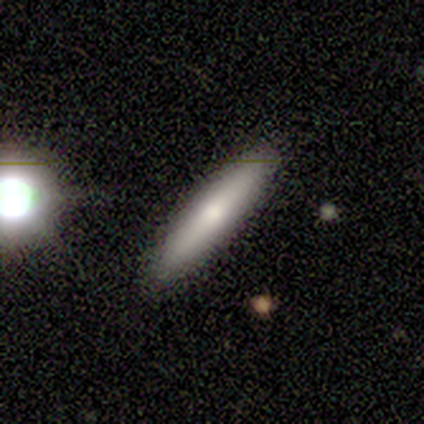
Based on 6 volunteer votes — Q: Smooth or featured?
A: smooth (83%); runner-up: featured or disk (17%)
Q: How rounded?
A: cigar-shaped (80%); runner-up: in between (20%)
Q: Merging?
A: none (50%); tied with: minor disturbance (50%)